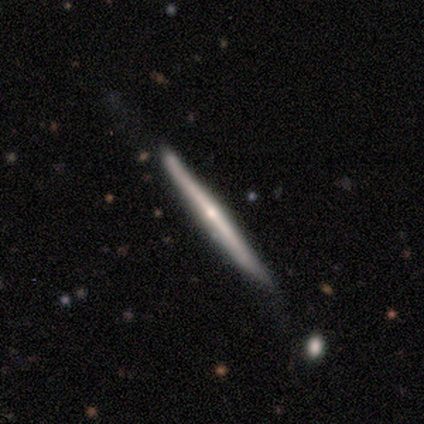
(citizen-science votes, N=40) Q: Smooth or featured?
A: featured or disk (80%); runner-up: smooth (20%)
Q: Edge-on disk?
A: yes (100%)
Q: Edge-on bulge?
A: rounded (59%); runner-up: none (38%)
Q: Merging?
A: none (48%); runner-up: minor disturbance (30%)